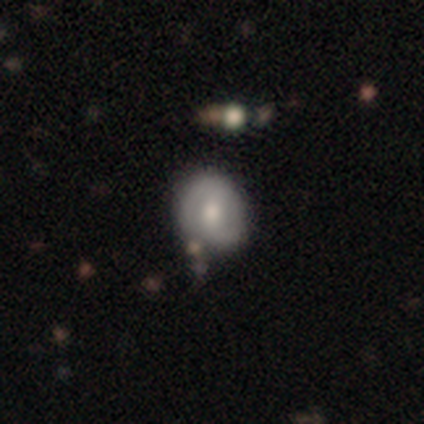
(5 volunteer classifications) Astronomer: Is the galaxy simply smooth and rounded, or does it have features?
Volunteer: featured or disk — 60% (runner-up: smooth, 40%).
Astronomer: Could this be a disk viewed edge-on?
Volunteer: no — 100%.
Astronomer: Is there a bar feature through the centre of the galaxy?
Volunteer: no — 67%.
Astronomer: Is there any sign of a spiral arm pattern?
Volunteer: no — 67%.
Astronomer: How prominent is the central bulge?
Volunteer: moderate — 67%.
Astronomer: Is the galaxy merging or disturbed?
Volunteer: none — 40% (runner-up: minor disturbance, 20%).